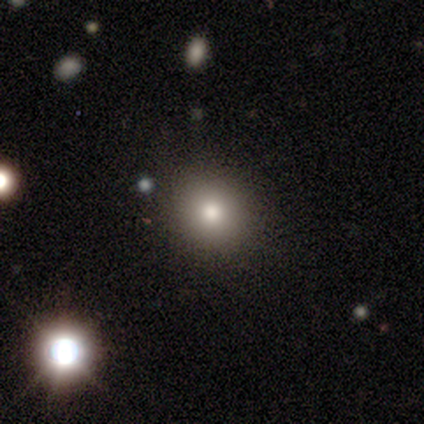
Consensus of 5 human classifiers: This appears to be a smooth galaxy with no disk features (100%) that is round (100%). Merging: none (100%).